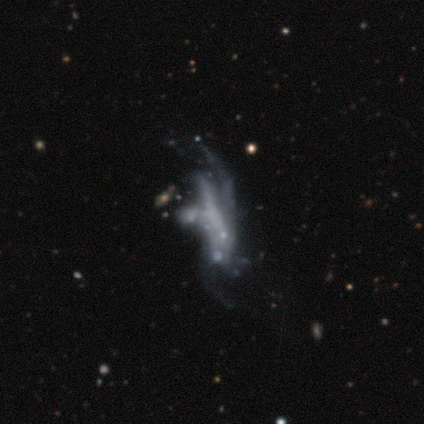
A featured or disk galaxy (60%) with no bar (67%), no spiral arms (100%) and no central bulge (100%). Merging: major disturbance (75%).